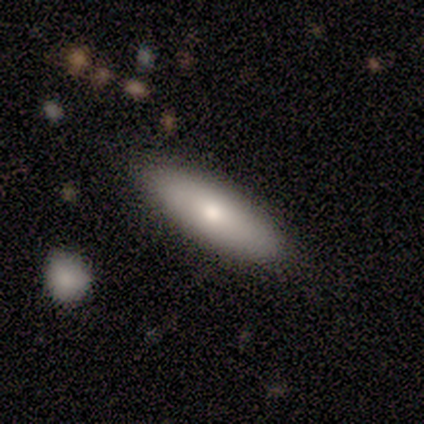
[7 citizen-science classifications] Overall: smooth (86%). How rounded: cigar-shaped (83%). Merging: none (71%).